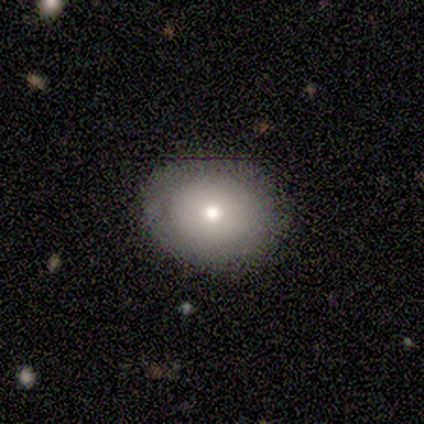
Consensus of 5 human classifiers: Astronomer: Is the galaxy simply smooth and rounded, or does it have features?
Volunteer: smooth — 80%.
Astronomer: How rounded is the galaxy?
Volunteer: round — 50%, tied with in between at 50%.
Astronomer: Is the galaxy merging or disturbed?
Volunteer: none — 100%.